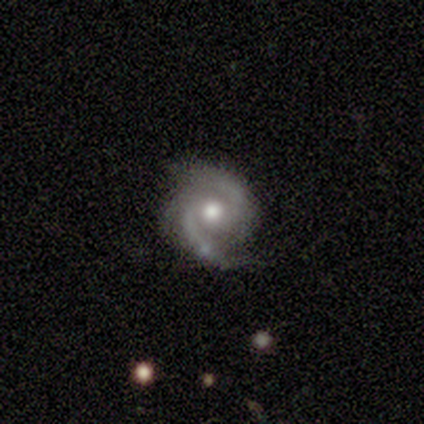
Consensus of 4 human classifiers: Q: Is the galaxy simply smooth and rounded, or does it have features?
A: featured or disk — 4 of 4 (100%).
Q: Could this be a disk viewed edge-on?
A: no — 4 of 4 (100%).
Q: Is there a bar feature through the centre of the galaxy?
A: strong — 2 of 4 (50%).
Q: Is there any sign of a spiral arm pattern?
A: yes — 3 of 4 (75%).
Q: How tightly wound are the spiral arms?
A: tight — 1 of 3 (33%, tied with medium and loose).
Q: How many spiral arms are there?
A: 2 — 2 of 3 (67%).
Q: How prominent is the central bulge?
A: moderate — 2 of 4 (50%, tied with small).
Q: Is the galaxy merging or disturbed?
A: none — 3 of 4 (75%).